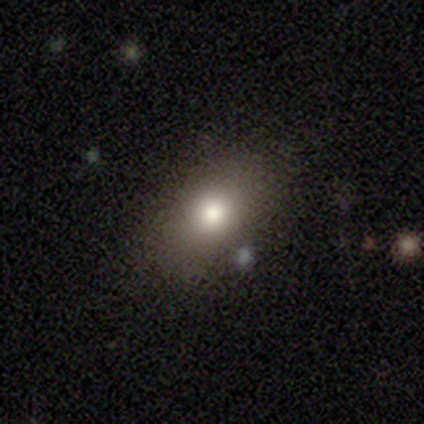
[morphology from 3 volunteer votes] This appears to be a smooth galaxy with no disk features (100%) that is in between round and cigar-shaped (67%). Merging: none (100%).